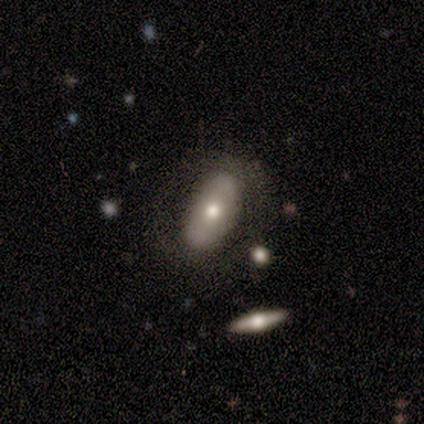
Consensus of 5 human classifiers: Q: Smooth or featured?
A: smooth (60%); runner-up: featured or disk (40%)
Q: How rounded?
A: in between (100%)
Q: Merging?
A: none (80%); runner-up: minor disturbance (20%)